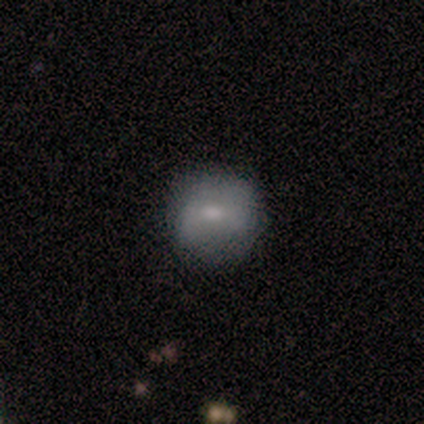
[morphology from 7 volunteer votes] A featured or disk galaxy (57%) with a weak bar (50%, tied with no), no spiral arms (75%) and a small central bulge (75%).

Vote fractions:
- Smooth or featured? featured or disk: 57% / smooth: 43% / star or artifact: 0%
- Edge-on disk? no: 100% / yes: 0%
- Bar? weak: 50% (tied) / no: 50% (tied) / strong: 0%
- Spiral arms? no: 75% / yes: 25%
- Bulge size? small: 75% / moderate: 25% / dominant: 0% / large: 0% / none: 0%
- Merging? none: 86% / minor disturbance: 14% / major disturbance: 0% / merger: 0%